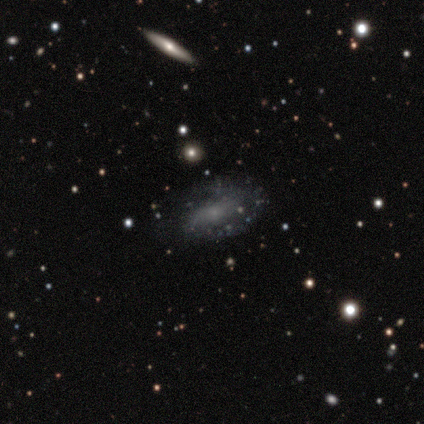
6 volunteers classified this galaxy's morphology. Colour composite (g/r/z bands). It shows a featured or disk galaxy (83%) with a weak bar (50%), 2 (100%) tight (33%, tied with medium and loose) spiral arms (75%) and a small central bulge (75%). Merging: none (83%).